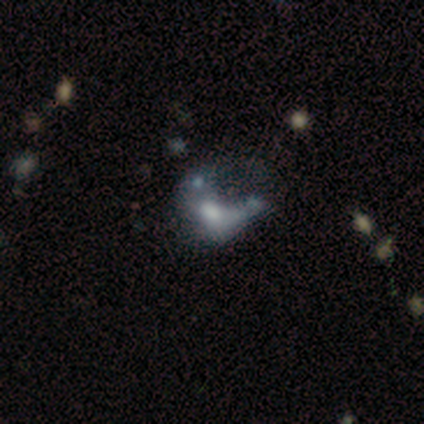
This is possibly a featured or disk galaxy (50%). It is clearly not viewed edge-on (100%). Bar: clearly no (80%). Spiral arm pattern: clearly no (90%). Central bulge: likely moderate (70%). Merging: marginally major disturbance (40%).